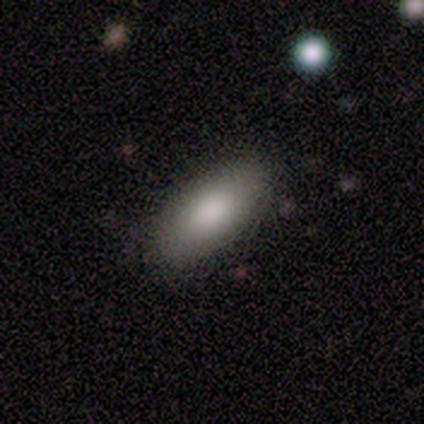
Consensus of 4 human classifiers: smooth-or-featured: smooth: 75% | featured or disk: 25% | star or artifact: 0%
  how-rounded: in between: 100% | round: 0% | cigar-shaped: 0%
  merging: none: 75% | major disturbance: 25% | minor disturbance: 0% | merger: 0%